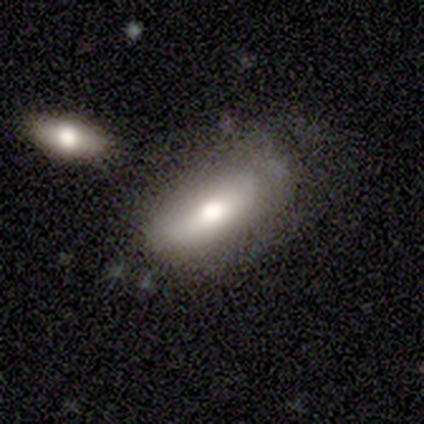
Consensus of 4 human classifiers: Volunteers were most divided on "how rounded": in between: 67%, cigar-shaped: 33%, round: 0%. More confident: merging — none (100%); smooth or featured — smooth (75%).